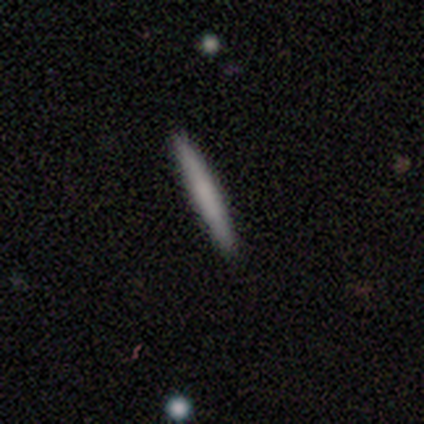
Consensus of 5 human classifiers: smooth-or-featured: smooth: 80% | featured or disk: 20% | star or artifact: 0%
  how-rounded: cigar-shaped: 100% | round: 0% | in between: 0%
  merging: none: 80% | minor disturbance: 20% | major disturbance: 0% | merger: 0%